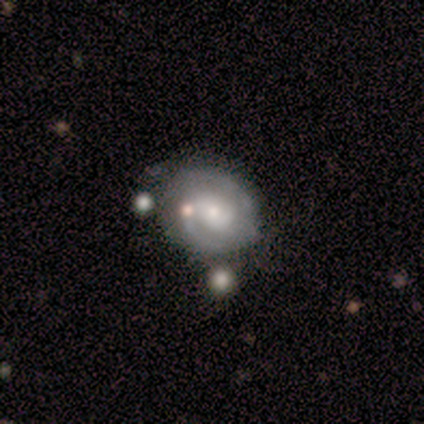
This is clearly a featured or disk galaxy (100%). It is clearly not viewed edge-on (100%). Bar: clearly no (80%). Spiral arm pattern: clearly yes (100%). Spiral arm count: likely 2 (60%). Spiral winding: likely tight (60%). Central bulge: likely small (60%). Merging: clearly none (100%).